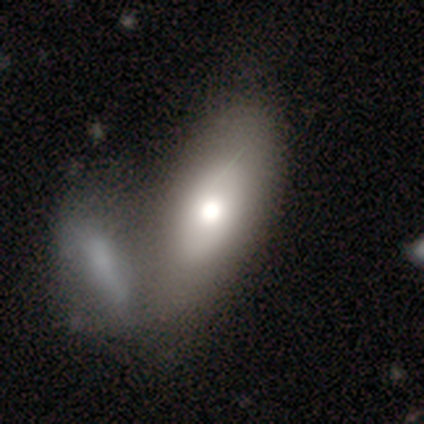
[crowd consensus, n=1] A featured or disk galaxy (100%) with no bar (100%), no spiral arms (100%) and a moderate central bulge (100%).

Vote fractions:
- Smooth or featured? featured or disk: 100% / smooth: 0% / star or artifact: 0%
- Edge-on disk? no: 100% / yes: 0%
- Bar? no: 100% / strong: 0% / weak: 0%
- Spiral arms? no: 100% / yes: 0%
- Bulge size? moderate: 100% / dominant: 0% / large: 0% / small: 0% / none: 0%
- Merging? merger: 100% / none: 0% / minor disturbance: 0% / major disturbance: 0%